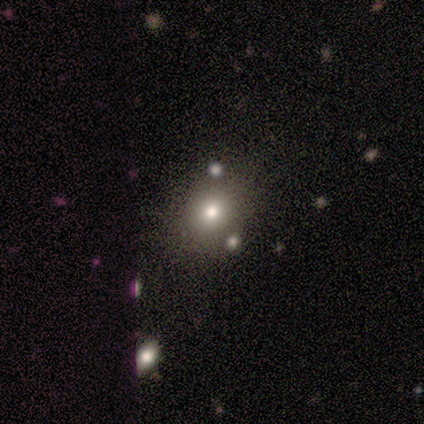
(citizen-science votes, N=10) Q: Smooth or featured?
A: smooth (80%); runner-up: featured or disk (20%)
Q: How rounded?
A: round (75%); runner-up: in between (25%)
Q: Merging?
A: none (80%); runner-up: minor disturbance (10%)